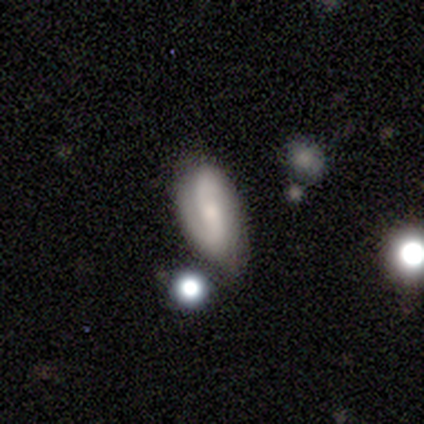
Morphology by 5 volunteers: Overall: smooth (40%, tied with featured or disk). How rounded: in between (100%). Merging: none (100%).